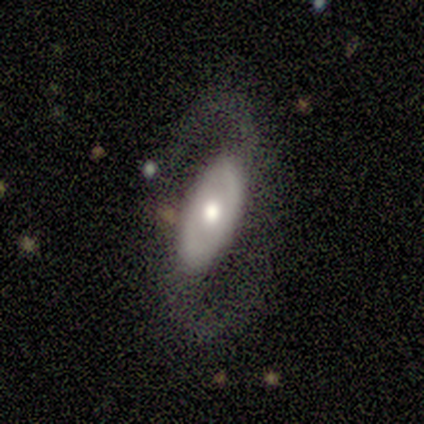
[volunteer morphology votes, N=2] Q: Smooth or featured?
A: featured or disk (100%)
Q: Edge-on disk?
A: no (100%)
Q: Bar?
A: no (100%)
Q: Spiral arms?
A: yes (100%)
Q: Spiral winding?
A: medium (100%)
Q: Spiral arm count?
A: 2 (100%)
Q: Bulge size?
A: large (50%); tied with: moderate (50%)
Q: Merging?
A: none (100%)